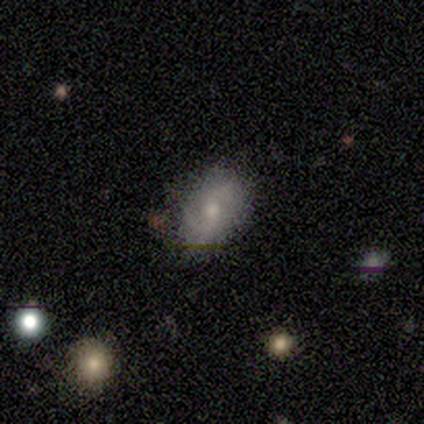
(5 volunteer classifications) Smooth or featured?
  - smooth: 60% *
  - featured or disk: 40%
  - star or artifact: 0%
How rounded?
  - in between: 67% *
  - round: 33%
  - cigar-shaped: 0%
Merging?
  - none: 80% *
  - minor disturbance: 20%
  - major disturbance: 0%
  - merger: 0%